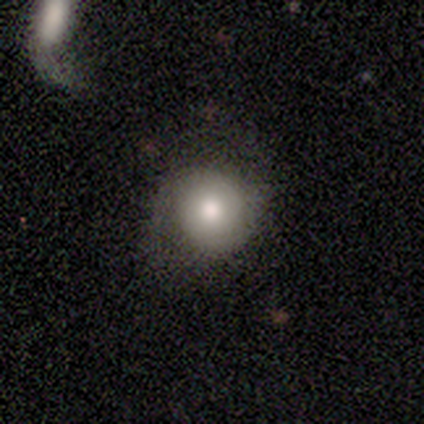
Smooth or featured: smooth — 60% (featured or disk — 40%)
How rounded: round — 67% (in between — 33%)
Merging: none — 60% (minor disturbance — 20%)